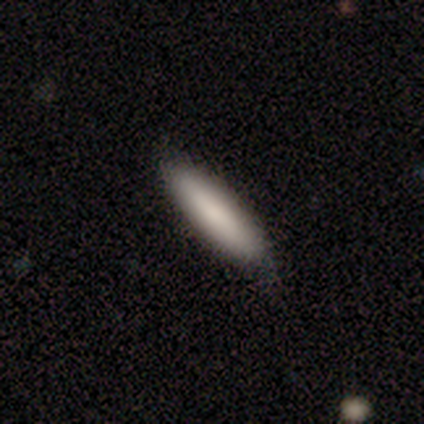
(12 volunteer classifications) Overall: smooth (100%). How rounded: cigar-shaped (100%). Merging: none (75%).